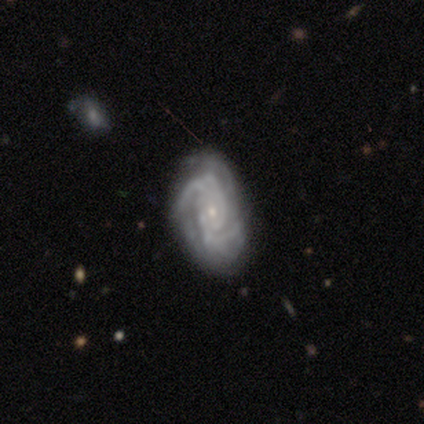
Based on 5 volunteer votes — A featured or disk galaxy (100%) with no bar (80%), 2 (50%) medium (75%) spiral arms (80%) and a small central bulge (60%).

Vote fractions:
- Smooth or featured? featured or disk: 100% / smooth: 0% / star or artifact: 0%
- Edge-on disk? no: 100% / yes: 0%
- Bar? no: 80% / weak: 20% / strong: 0%
- Spiral arms? yes: 80% / no: 20%
- Spiral winding? medium: 75% / tight: 25% / loose: 0%
- Spiral arm count? 2: 50% / 3: 25% / can't tell: 25% / 1: 0% / 4: 0% / more than 4: 0%
- Bulge size? small: 60% / moderate: 40% / dominant: 0% / large: 0% / none: 0%
- Merging? none: 60% / major disturbance: 40% / minor disturbance: 0% / merger: 0%